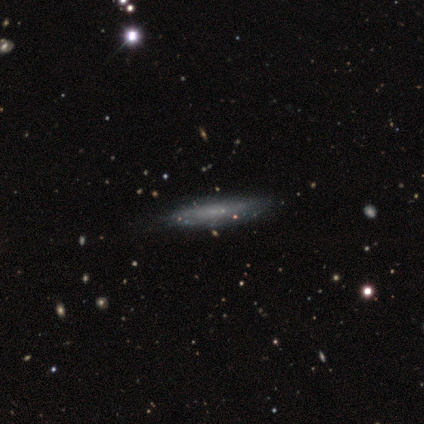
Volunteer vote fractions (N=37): smooth 54%, featured or disk 43%, star or artifact 3%. Down the decision tree: how rounded — cigar-shaped (95%); merging — none (58%).